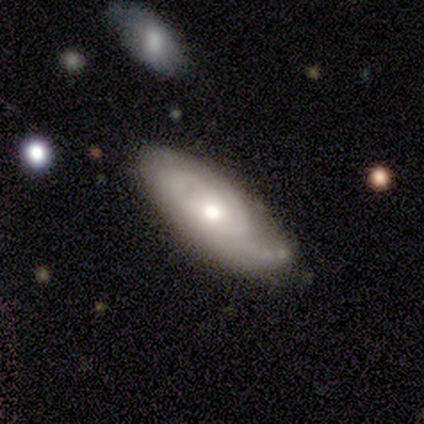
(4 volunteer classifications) Volunteers were most divided on "smooth or featured" (2-way tie): smooth: 50%, featured or disk: 50%, star or artifact: 0%. More confident: how rounded — in between (100%); merging — none (75%).